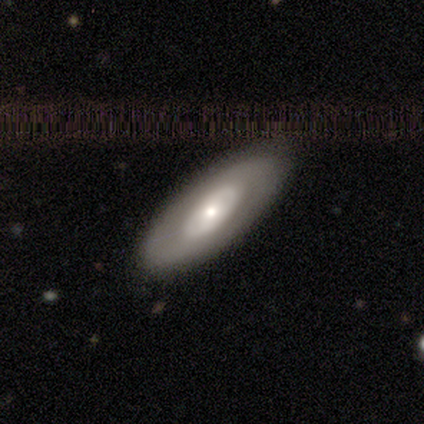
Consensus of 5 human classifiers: This is likely a featured or disk galaxy (60%). It is likely not viewed edge-on (67%). Bar: clearly no (100%). Spiral arm pattern: clearly no (100%). Central bulge: possibly moderate (50%, tied with small). Merging: clearly none (100%).